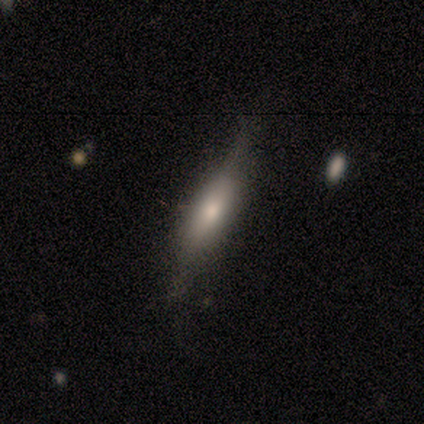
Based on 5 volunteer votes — Morphology: type=smooth (40%, tied with star or artifact); roundness=in between (50%, tied with cigar-shaped); merging=none (100%).